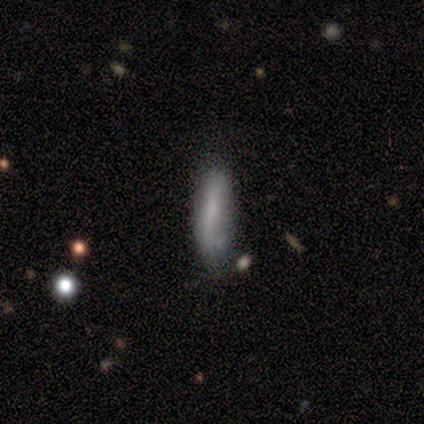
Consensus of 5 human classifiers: Volunteers were most divided on "merging": merger: 60%, none: 20%, minor disturbance: 20%, major disturbance: 0%. More confident: how rounded — cigar-shaped (100%); smooth or featured — smooth (80%).